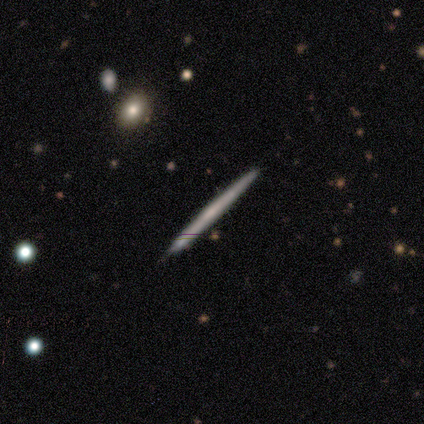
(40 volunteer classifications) smooth_or_featured: featured or disk (p=0.70) [alt: smooth p=0.30]
disk_edge_on: yes (p=1.00)
edge_on_bulge: none (p=0.82) [alt: rounded p=0.11]
merging: none (p=0.57) [alt: minor disturbance p=0.15]